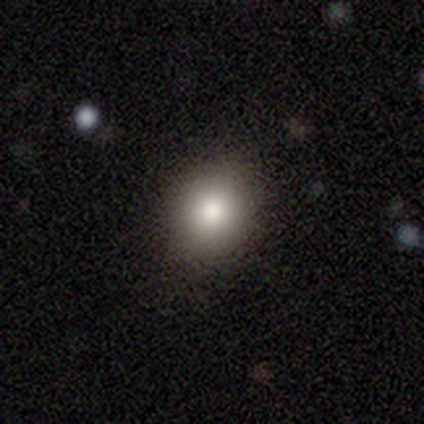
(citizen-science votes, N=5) This is clearly a smooth galaxy (100%). How rounded: clearly round (80%). Merging: clearly none (80%).